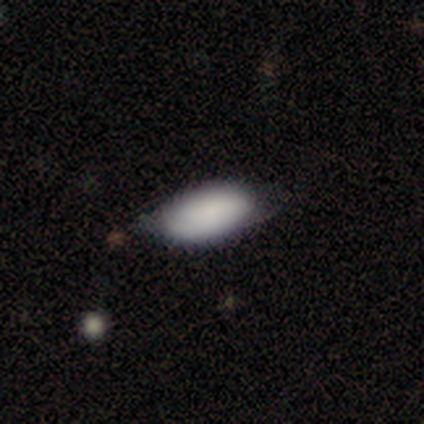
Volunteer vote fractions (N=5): Smooth or featured? 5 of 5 (100%) said smooth. How rounded? 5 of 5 (100%) said in between. Merging? 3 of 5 (60%) said none.